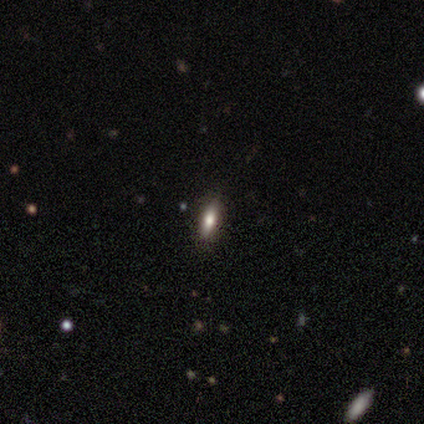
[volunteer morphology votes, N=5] A star or artifact, not a galaxy (60%).